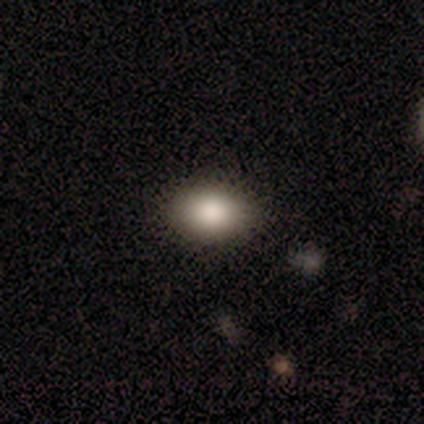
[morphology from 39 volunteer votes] Q: Smooth or featured?
A: smooth (82%); runner-up: featured or disk (13%)
Q: How rounded?
A: in between (81%); runner-up: round (19%)
Q: Merging?
A: none (92%); runner-up: minor disturbance (5%)